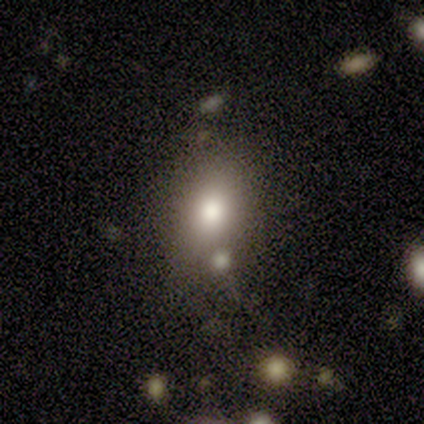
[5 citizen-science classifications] smooth_or_featured: smooth (p=0.80) [alt: star or artifact p=0.20]
how_rounded: round (p=0.50) [tied with: in between p=0.50]
merging: none (p=1.00)